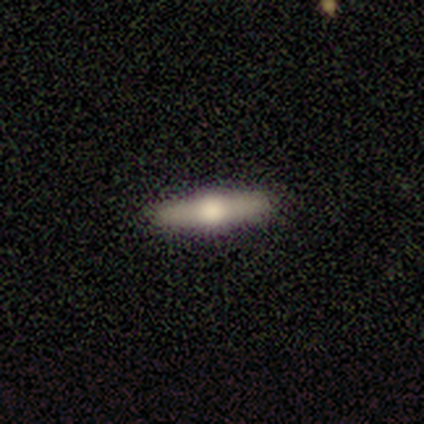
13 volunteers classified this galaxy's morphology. type=smooth (46%, tied with featured or disk); roundness=cigar-shaped (83%); merging=none (100%).